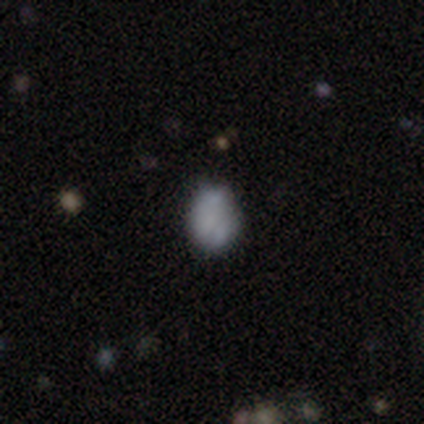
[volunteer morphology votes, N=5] smooth_or_featured: smooth (p=0.60) [alt: featured or disk p=0.20]
how_rounded: in between (p=0.67) [alt: round p=0.33]
merging: none (p=0.75) [alt: minor disturbance p=0.25]